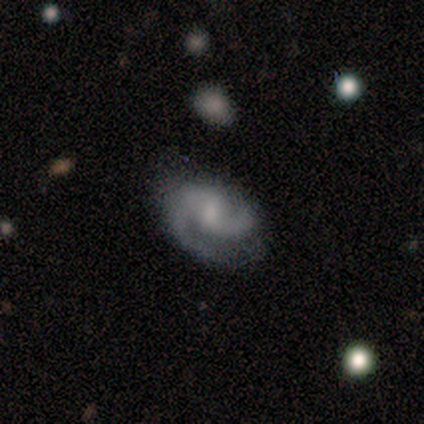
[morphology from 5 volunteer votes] This is clearly a featured or disk galaxy (80%). It is clearly not viewed edge-on (100%). Bar: possibly weak (50%). Spiral arm pattern: clearly yes (100%). Spiral arm count: clearly 2 (100%). Spiral winding: possibly tight (50%). Central bulge: likely small (75%). Merging: likely none (75%).